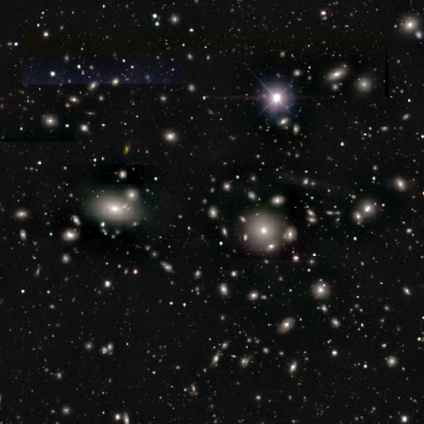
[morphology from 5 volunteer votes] This is clearly a star or artifact rather than a galaxy (80%).